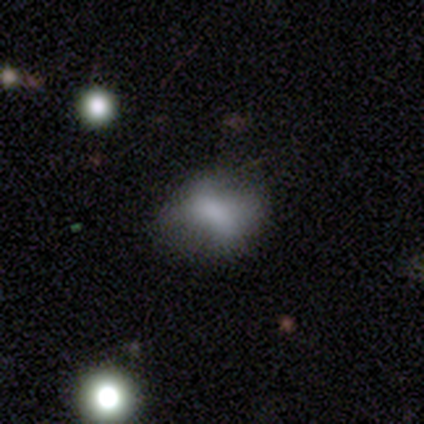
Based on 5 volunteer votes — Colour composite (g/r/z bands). It shows a smooth galaxy with no disk features (60%) that is round (67%). Merging: none (75%).